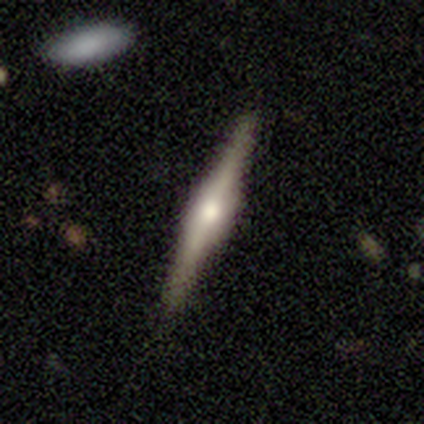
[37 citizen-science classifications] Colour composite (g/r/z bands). It shows a featured or disk galaxy (81%) viewed edge-on (93%) with a rounded central bulge (64%). Merging: none (92%).